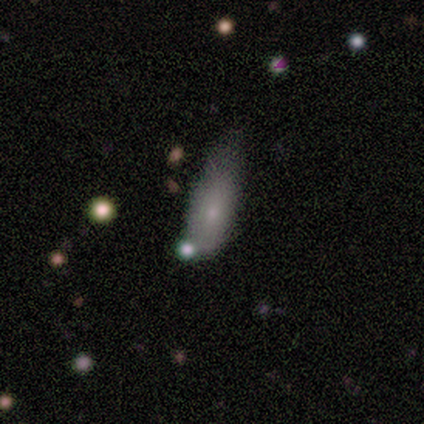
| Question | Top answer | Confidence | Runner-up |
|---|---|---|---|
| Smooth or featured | smooth | 72% | featured or disk (22%) |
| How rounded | in between | 68% | cigar-shaped (29%) |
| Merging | minor disturbance | 22% | merger (18%) |